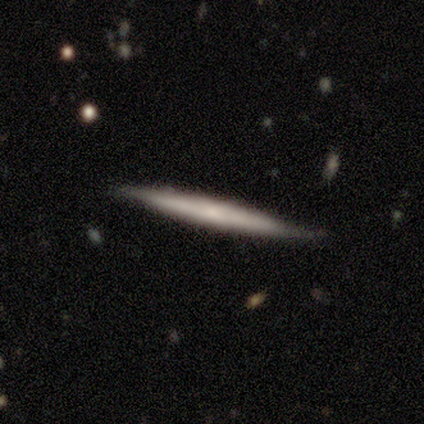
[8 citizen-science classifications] smooth-or-featured: smooth: 50% (tied) | featured or disk: 50% (tied) | star or artifact: 0%
  how-rounded: cigar-shaped: 100% | round: 0% | in between: 0%
  merging: none: 75% | minor disturbance: 25% | major disturbance: 0% | merger: 0%